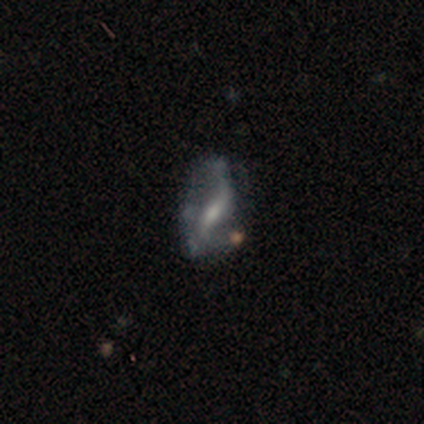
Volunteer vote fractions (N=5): A featured or disk galaxy (100%) with a weak bar (80%), 2 (100%) loose (100%) spiral arms (80%) and a small central bulge (80%).

Vote fractions:
- Smooth or featured? featured or disk: 100% / smooth: 0% / star or artifact: 0%
- Edge-on disk? no: 100% / yes: 0%
- Bar? weak: 80% / strong: 20% / no: 0%
- Spiral arms? yes: 80% / no: 20%
- Spiral winding? loose: 100% / tight: 0% / medium: 0%
- Spiral arm count? 2: 100% / 1: 0% / 3: 0% / 4: 0% / more than 4: 0% / can't tell: 0%
- Bulge size? small: 80% / moderate: 20% / dominant: 0% / large: 0% / none: 0%
- Merging? none: 60% / minor disturbance: 40% / major disturbance: 0% / merger: 0%